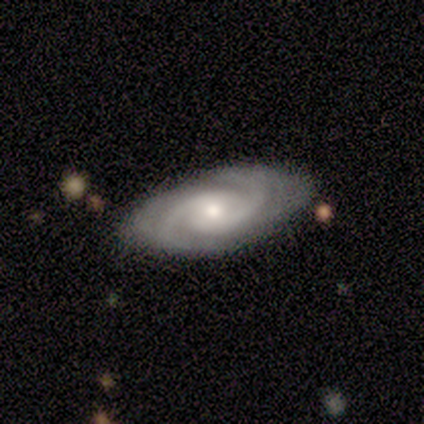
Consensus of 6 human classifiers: Smooth or featured?
  - featured or disk: 100% *
  - smooth: 0%
  - star or artifact: 0%
Edge-on disk?
  - no: 100% *
  - yes: 0%
Bar?
  - no: 83% *
  - weak: 17%
  - strong: 0%
Spiral arms?
  - yes: 100% *
  - no: 0%
Spiral winding?
  - medium: 83% *
  - tight: 17%
  - loose: 0%
Spiral arm count?
  - 2: 83% *
  - can't tell: 17%
  - 1: 0%
  - 3: 0%
  - 4: 0%
  - more than 4: 0%
Bulge size?
  - small: 83% *
  - moderate: 17%
  - dominant: 0%
  - large: 0%
  - none: 0%
Merging?
  - none: 100% *
  - minor disturbance: 0%
  - major disturbance: 0%
  - merger: 0%